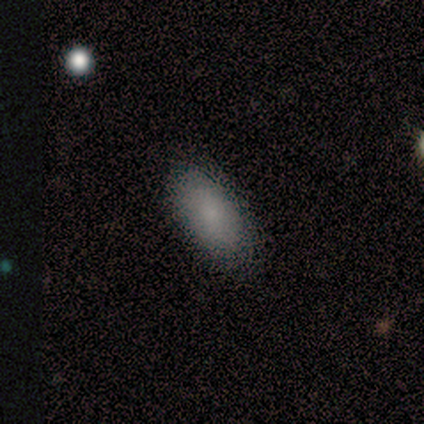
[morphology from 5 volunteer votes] A smooth galaxy with no disk features (100%) that is in between round and cigar-shaped (80%). Merging: minor disturbance (60%).